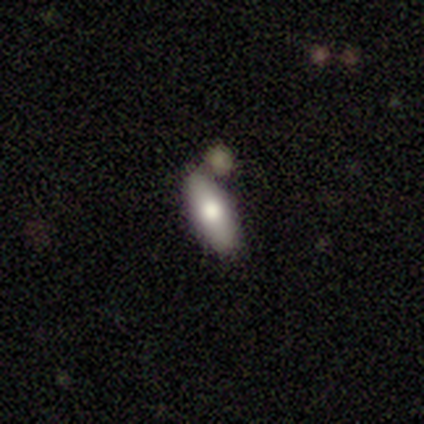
smooth_or_featured: smooth (p=1.00)
how_rounded: in between (p=0.60) [alt: round p=0.20]
merging: none (p=0.80) [alt: minor disturbance p=0.20]